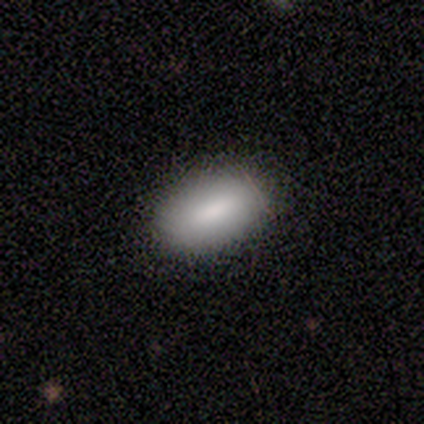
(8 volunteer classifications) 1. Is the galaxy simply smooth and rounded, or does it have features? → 88% smooth, 12% star or artifact, 0% featured or disk.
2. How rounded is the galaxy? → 100% in between, 0% round, 0% cigar-shaped.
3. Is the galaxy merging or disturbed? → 86% none, 14% minor disturbance, 0% major disturbance, 0% merger.